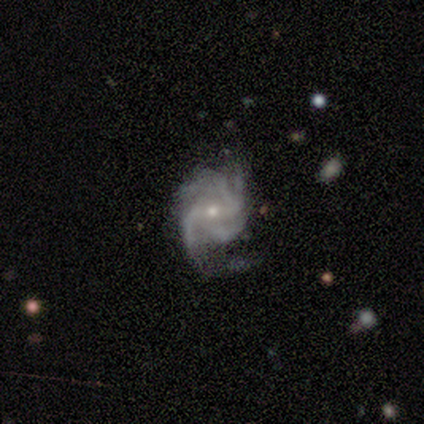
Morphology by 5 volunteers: Volunteers were most divided on "bar" (2-way tie): strong: 40%, no: 40%, weak: 20%; "spiral winding" (2-way tie): tight: 40%, medium: 40%, loose: 20%; "merging" (2-way tie): none: 40%, major disturbance: 40%, minor disturbance: 20%, merger: 0%. More confident: smooth or featured — featured or disk (100%); edge-on disk — no (100%); spiral arms — yes (100%); bulge size — small (60%); spiral arm count — 3 (60%).